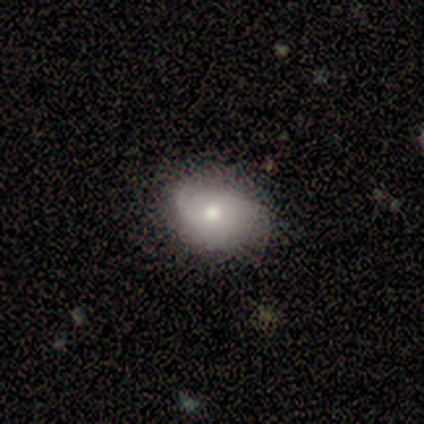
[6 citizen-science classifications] smooth-or-featured: smooth: 100% | featured or disk: 0% | star or artifact: 0%
  how-rounded: round: 50% (tied) | in between: 50% (tied) | cigar-shaped: 0%
  merging: none: 67% | minor disturbance: 17% | major disturbance: 17% | merger: 0%